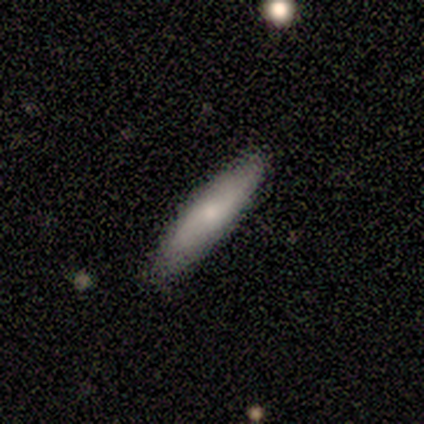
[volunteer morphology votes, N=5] This appears to be a featured or disk galaxy (60%) with no bar (100%), no spiral arms (100%) and a small central bulge (100%). Merging: none (100%).